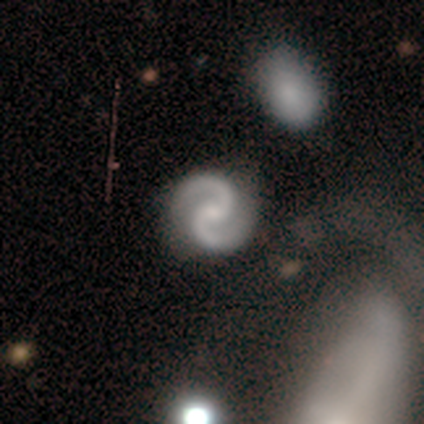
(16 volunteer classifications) A featured or disk galaxy (94%) with no bar (60%), 2 (100%) medium (71%) spiral arms (93%) and a small central bulge (60%). Merging: none (88%).